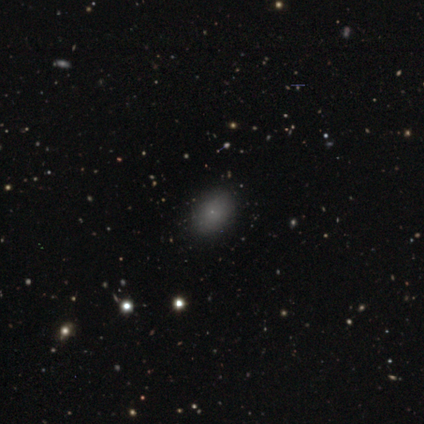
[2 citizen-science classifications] A smooth galaxy with no disk features (50%, tied with star or artifact) that is in between round and cigar-shaped (100%).

Vote fractions:
- Smooth or featured? smooth: 50% (tied) / star or artifact: 50% (tied) / featured or disk: 0%
- How rounded? in between: 100% / round: 0% / cigar-shaped: 0%
- Merging? none: 100% / minor disturbance: 0% / major disturbance: 0% / merger: 0%